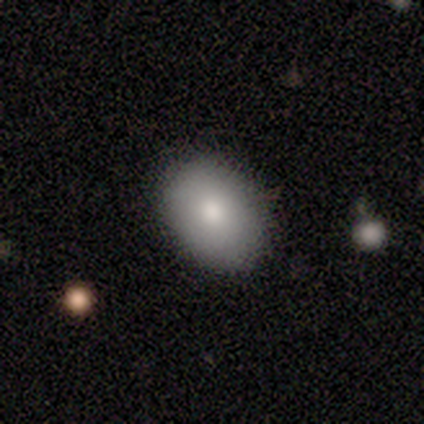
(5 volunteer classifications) Morphology: type=smooth (100%); roundness=in between (80%); merging=none (100%).